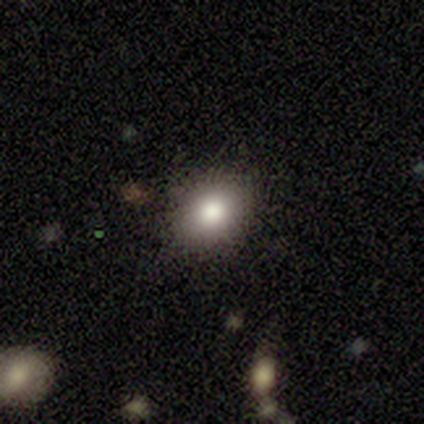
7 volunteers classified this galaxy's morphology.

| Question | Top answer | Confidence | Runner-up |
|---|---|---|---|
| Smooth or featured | smooth | 86% | featured or disk (14%) |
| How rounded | round | 50% | tied: in between (50%) |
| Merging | none | 100% | — |